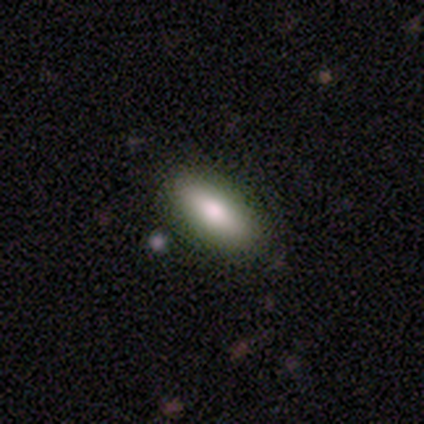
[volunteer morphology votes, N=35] smooth 74%, featured or disk 17%, star or artifact 9%. Down the decision tree: how rounded — in between (77%); merging — none (84%).